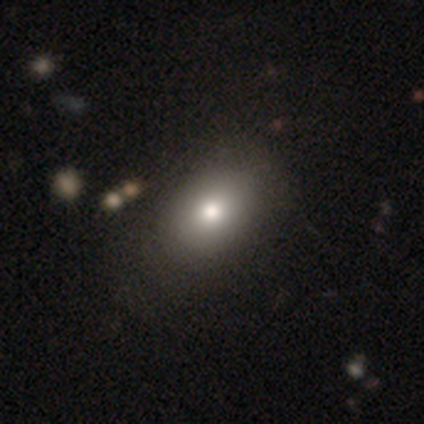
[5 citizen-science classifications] smooth-or-featured: smooth: 40% (tied) | featured or disk: 40% (tied) | star or artifact: 20%
  how-rounded: in between: 100% | round: 0% | cigar-shaped: 0%
  merging: none: 75% | major disturbance: 25% | minor disturbance: 0% | merger: 0%